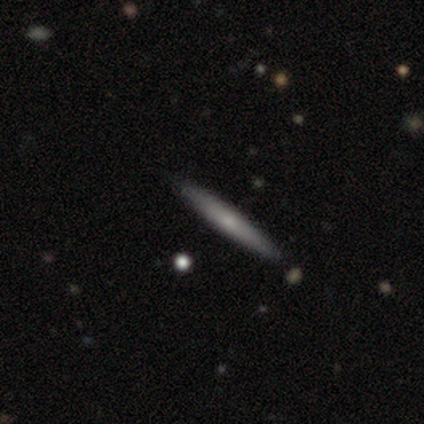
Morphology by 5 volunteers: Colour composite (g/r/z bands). It shows a smooth galaxy with no disk features (40%, tied with featured or disk) that is cigar-shaped (100%). Merging: none (100%).